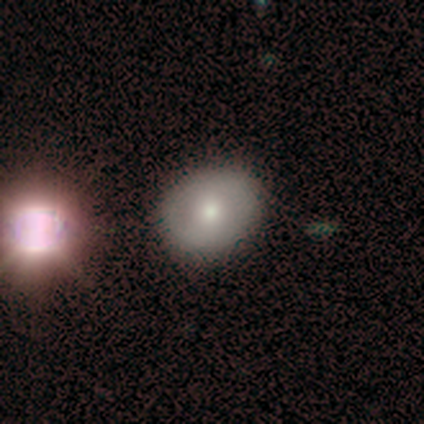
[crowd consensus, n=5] Q: Smooth or featured?
A: featured or disk (80%); runner-up: smooth (20%)
Q: Edge-on disk?
A: no (100%)
Q: Bar?
A: weak (50%); tied with: no (50%)
Q: Spiral arms?
A: no (75%); runner-up: yes (25%)
Q: Bulge size?
A: moderate (50%); tied with: small (50%)
Q: Merging?
A: none (80%); runner-up: merger (20%)